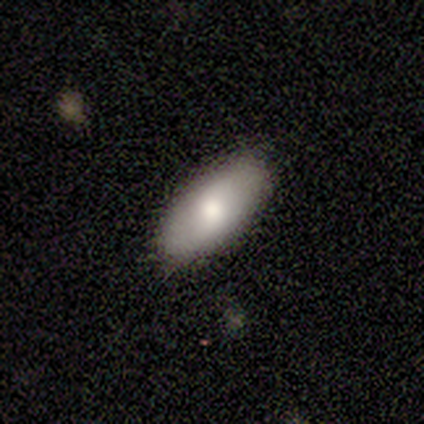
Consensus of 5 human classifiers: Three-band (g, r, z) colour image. It shows a smooth galaxy with no disk features (60%) that is in between round and cigar-shaped (67%). Merging: none (100%).